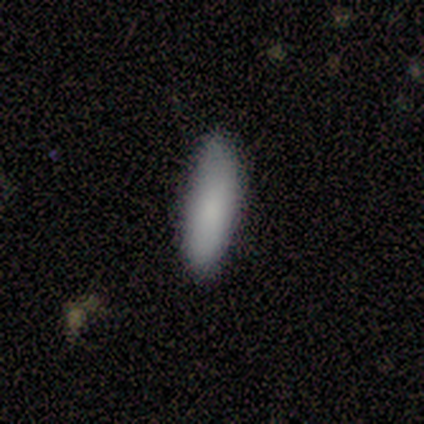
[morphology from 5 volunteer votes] Volunteers were most divided on "merging" (2-way tie): none: 40%, minor disturbance: 40%, major disturbance: 20%, merger: 0%. More confident: smooth or featured — smooth (100%); how rounded — cigar-shaped (60%).